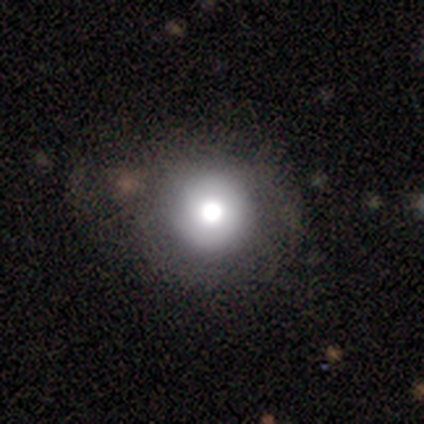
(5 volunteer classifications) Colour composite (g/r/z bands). It shows a smooth galaxy with no disk features (80%) that is round (75%). Merging: none (75%).